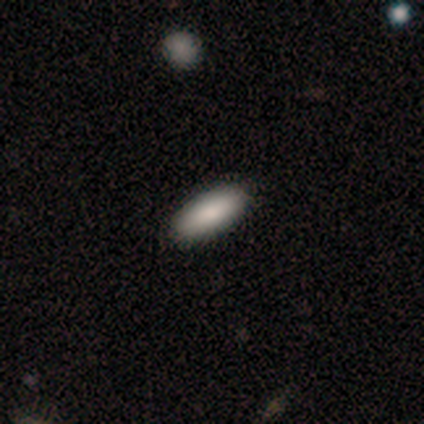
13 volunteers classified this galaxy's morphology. Smooth or featured?
  - smooth: 92% *
  - featured or disk: 8%
  - star or artifact: 0%
How rounded?
  - in between: 58% *
  - cigar-shaped: 42%
  - round: 0%
Merging?
  - none: 100% *
  - minor disturbance: 0%
  - major disturbance: 0%
  - merger: 0%